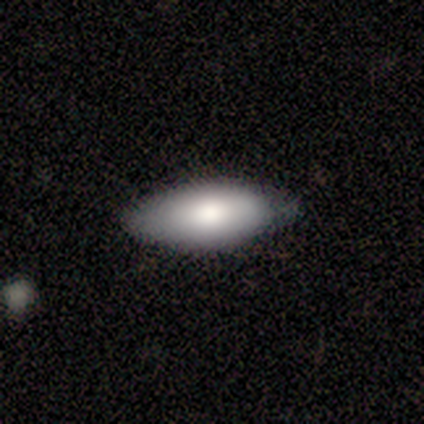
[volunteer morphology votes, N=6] smooth 83%, featured or disk 17%, star or artifact 0%. Down the decision tree: how rounded — in between (60%); merging — none (50%, tied with minor disturbance).